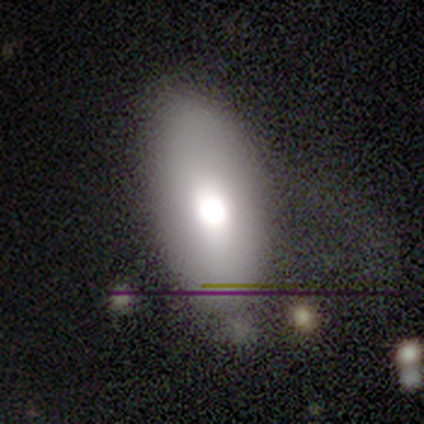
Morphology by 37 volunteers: Q: Smooth or featured?
A: smooth (65%); runner-up: featured or disk (27%)
Q: How rounded?
A: in between (92%); runner-up: cigar-shaped (8%)
Q: Merging?
A: none (59%); runner-up: minor disturbance (24%)